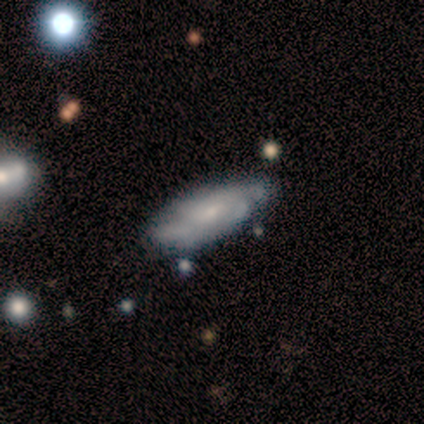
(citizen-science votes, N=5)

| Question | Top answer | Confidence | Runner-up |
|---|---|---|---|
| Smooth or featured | featured or disk | 60% | smooth (40%) |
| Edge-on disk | no | 100% | — |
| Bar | weak | 67% | no (33%) |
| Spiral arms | no | 67% | yes (33%) |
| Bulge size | small | 100% | — |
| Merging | none | 60% | minor disturbance (40%) |